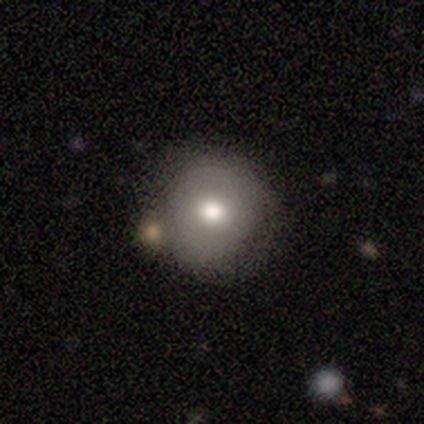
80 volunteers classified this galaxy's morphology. Q: Smooth or featured?
A: smooth (76%); runner-up: featured or disk (16%)
Q: How rounded?
A: round (93%); runner-up: in between (7%)
Q: Merging?
A: none (39%); runner-up: merger (18%)